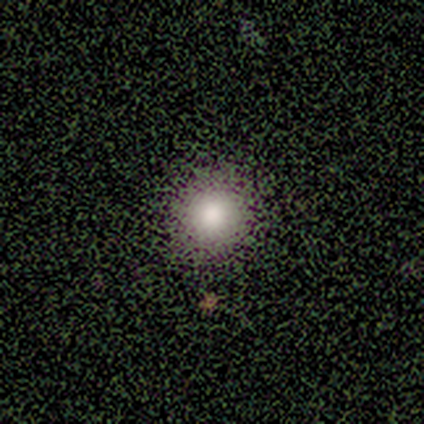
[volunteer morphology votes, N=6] A smooth galaxy with no disk features (83%) that is round (100%). Merging: none (100%).